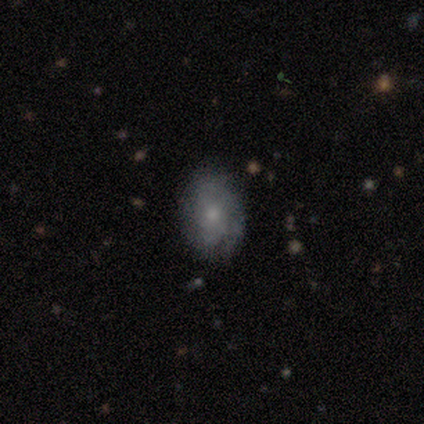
smooth-or-featured: smooth: 60% | featured or disk: 40% | star or artifact: 0%
  how-rounded: in between: 100% | round: 0% | cigar-shaped: 0%
  merging: none: 60% | major disturbance: 40% | minor disturbance: 0% | merger: 0%